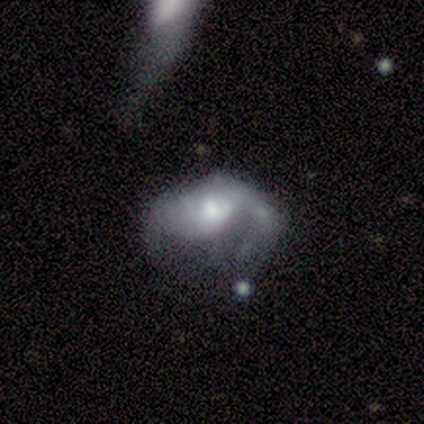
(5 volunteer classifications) Smooth or featured: featured or disk — 80% (smooth — 20%)
Edge-on disk: no — 100%
Bar: no — 75% (weak — 25%)
Spiral arms: yes — 75% (no — 25%)
Spiral winding: medium — 67% (tight — 33%)
Spiral arm count: 1 — 33% (tied with 2 — 33%; can't tell — 33%)
Bulge size: moderate — 50% (small — 25%)
Merging: major disturbance — 60% (none — 20%)